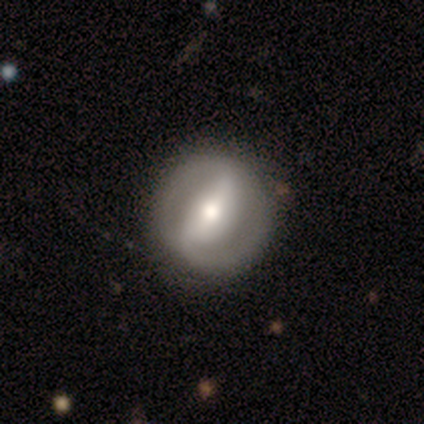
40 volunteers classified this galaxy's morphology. Smooth or featured? featured or disk (65%)
Edge-on disk? no (92%)
Bar? strong (67%)
Spiral arms? yes (58%)
Spiral winding? tight (64%)
Spiral arm count? 2 (86%)
Bulge size? moderate (54%)
Merging? none (85%)